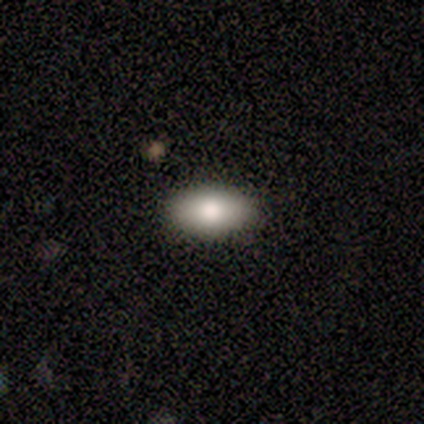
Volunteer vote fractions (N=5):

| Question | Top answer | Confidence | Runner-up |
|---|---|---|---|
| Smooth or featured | smooth | 100% | — |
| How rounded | in between | 100% | — |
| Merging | none | 100% | — |